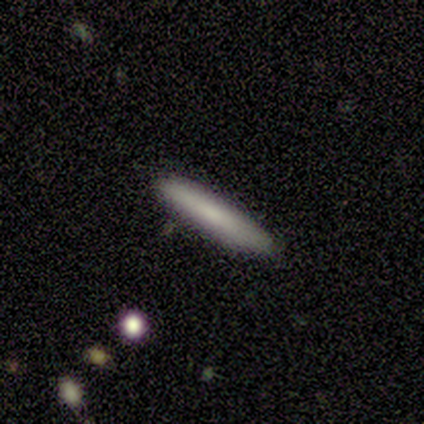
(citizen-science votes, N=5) Morphology: type=featured or disk (60%); edge-on=yes (100%); edge-on bulge=rounded (67%); merging=none (80%).